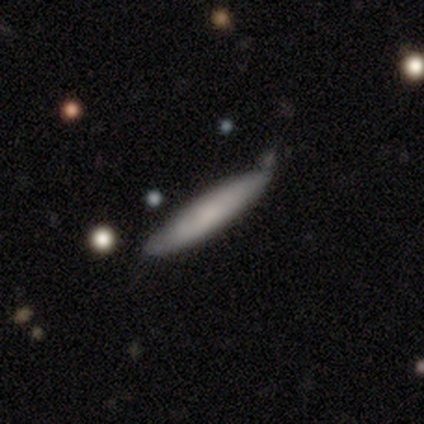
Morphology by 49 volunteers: Volunteers were most divided on "merging": none: 74%, minor disturbance: 23%, major disturbance: 2%, merger: 0%. More confident: how rounded — cigar-shaped (95%); smooth or featured — smooth (78%).